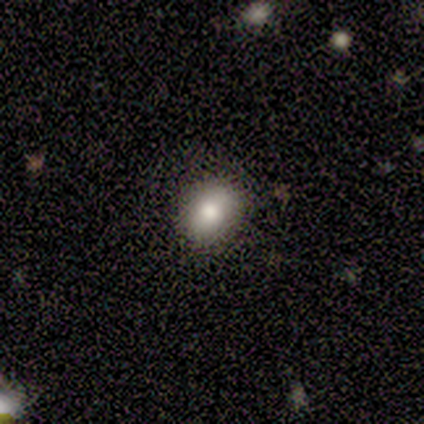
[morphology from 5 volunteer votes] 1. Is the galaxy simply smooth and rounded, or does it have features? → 80% smooth, 20% star or artifact, 0% featured or disk.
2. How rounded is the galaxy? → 75% in between, 25% round, 0% cigar-shaped.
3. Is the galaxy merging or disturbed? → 75% none, 25% minor disturbance, 0% major disturbance, 0% merger.